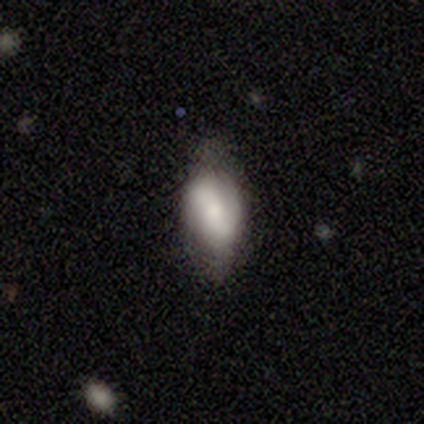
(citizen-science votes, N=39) Q: Smooth or featured?
A: featured or disk (56%); runner-up: smooth (44%)
Q: Edge-on disk?
A: no (95%); runner-up: yes (5%)
Q: Bar?
A: no (43%); runner-up: weak (38%)
Q: Spiral arms?
A: yes (81%); runner-up: no (19%)
Q: Spiral winding?
A: loose (47%); runner-up: tight (29%)
Q: Spiral arm count?
A: 2 (82%); runner-up: can't tell (12%)
Q: Bulge size?
A: moderate (33%); runner-up: small (29%)
Q: Merging?
A: none (56%); runner-up: minor disturbance (21%)